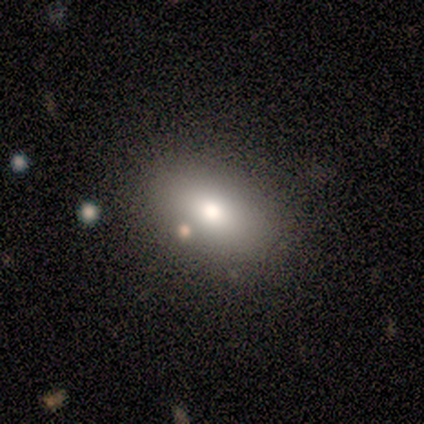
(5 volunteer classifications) smooth_or_featured: smooth (p=0.80) [alt: star or artifact p=0.20]
how_rounded: in between (p=1.00)
merging: none (p=1.00)